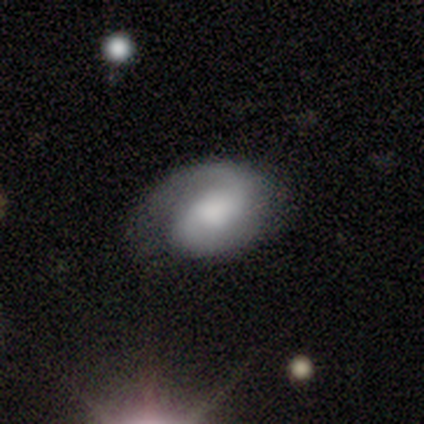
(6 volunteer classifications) Overall: featured or disk (100%). Edge-on disk: no (100%). Bar: no (67%; weak 33%). Spiral arms: yes (83%). Spiral arm count: 2 (100%). Spiral winding: tight (60%; medium 40%). Bulge size: large (50%; moderate 17%). Merging: minor disturbance (67%).